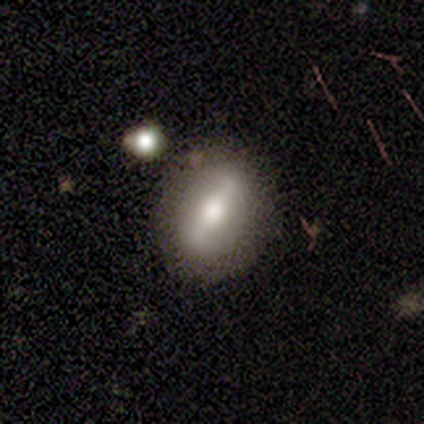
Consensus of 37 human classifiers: A featured or disk galaxy (54%) with a strong bar (75%), no spiral arms (67%) and a moderate central bulge (50%).

Vote fractions:
- Smooth or featured? featured or disk: 54% / smooth: 38% / star or artifact: 8%
- Edge-on disk? no: 60% / yes: 40%
- Bar? strong: 75% / weak: 17% / no: 8%
- Spiral arms? no: 67% / yes: 33%
- Bulge size? moderate: 50% / large: 42% / dominant: 8% / small: 0% / none: 0%
- Merging? none: 74% / minor disturbance: 21% / merger: 6% / major disturbance: 0%